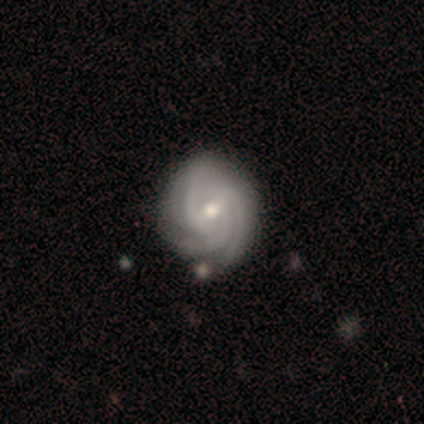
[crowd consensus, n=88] Volunteers were most divided on "bulge size": moderate: 57%, small: 40%, large: 3%, dominant: 0%, none: 0%. More confident: spiral arms — yes (100%); edge-on disk — no (92%); smooth or featured — featured or disk (89%); spiral arm count — 3 (82%); merging — none (81%); spiral winding — tight (74%); bar — weak (61%).